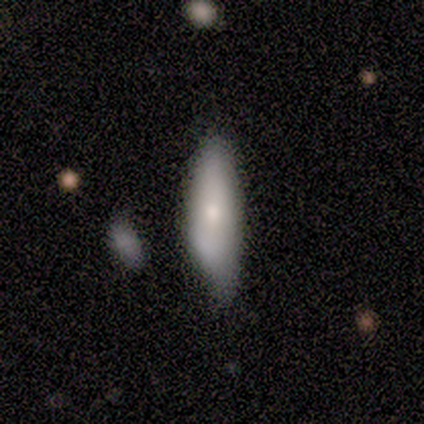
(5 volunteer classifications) Morphology: type=smooth (100%); roundness=in between (60%); merging=none (100%).